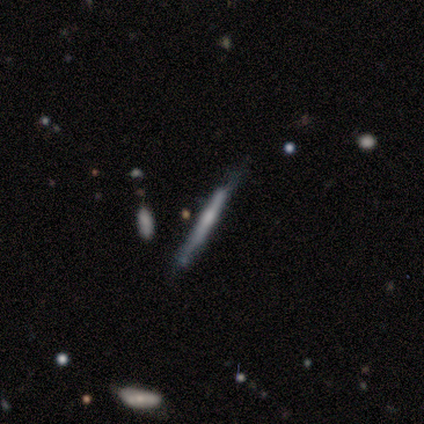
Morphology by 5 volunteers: smooth_or_featured: featured or disk (p=0.80) [alt: smooth p=0.20]
disk_edge_on: yes (p=1.00)
edge_on_bulge: none (p=0.50) [tied with: rounded p=0.50]
merging: none (p=1.00)